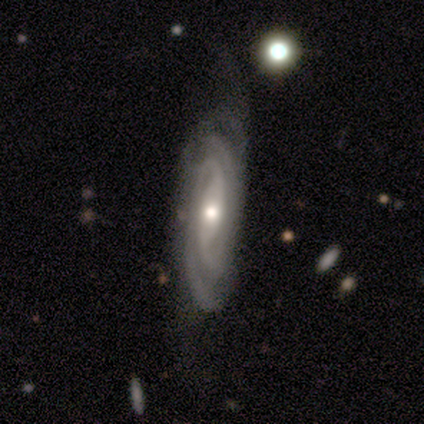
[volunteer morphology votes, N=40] smooth-or-featured: featured or disk: 95% | smooth: 2% | star or artifact: 2%
  disk-edge-on: no: 89% | yes: 11%
    bar: no: 53% | strong: 24% | weak: 24%
    has-spiral-arms: yes: 100% | no: 0%
      spiral-winding: tight: 74% | medium: 21% | loose: 6%
      spiral-arm-count: 2: 56% | can't tell: 21% | 3: 15% | 4: 6% | more than 4: 3% | 1: 0%
    bulge-size: moderate: 68% | small: 26% | large: 6% | dominant: 0% | none: 0%
  merging: none: 33% | minor disturbance: 23% | major disturbance: 8% | merger: 0%